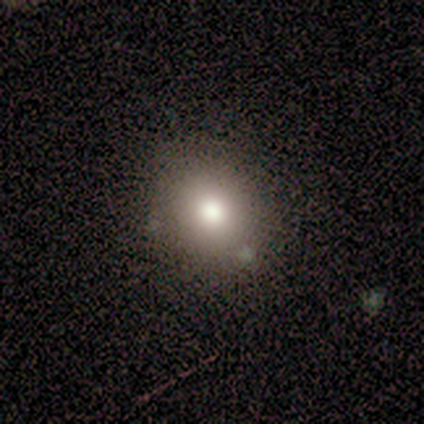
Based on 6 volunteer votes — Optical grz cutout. It shows a smooth galaxy with no disk features (100%) that is round (67%). Merging: none (100%).